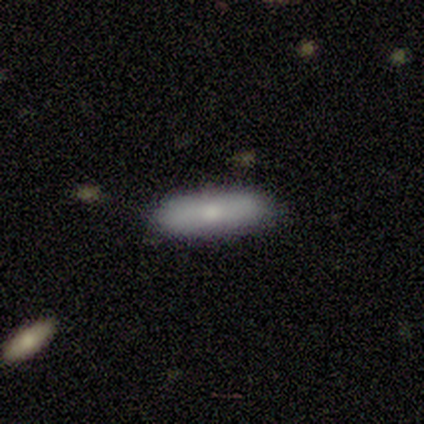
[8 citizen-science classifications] Overall: smooth (62%; featured or disk 38%). How rounded: in between (80%). Merging: none (88%).